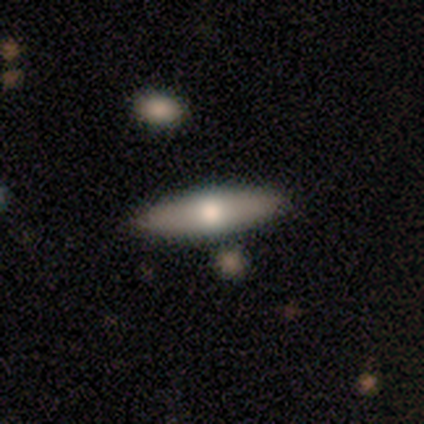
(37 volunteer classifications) Smooth or featured? smooth (62%)
How rounded? in between (52%)
Merging? none (89%)